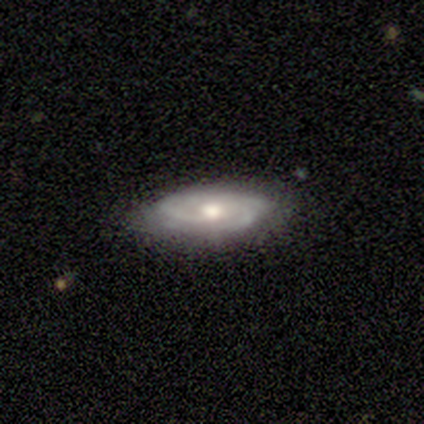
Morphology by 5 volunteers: Volunteers were most divided on "bar": no: 60%, weak: 40%, strong: 0%. Remaining: smooth or featured — featured or disk (100%); edge-on disk — no (100%); spiral arms — yes (100%); bulge size — moderate (100%); spiral winding — tight (80%); merging — none (60%); spiral arm count — 3 (40%).